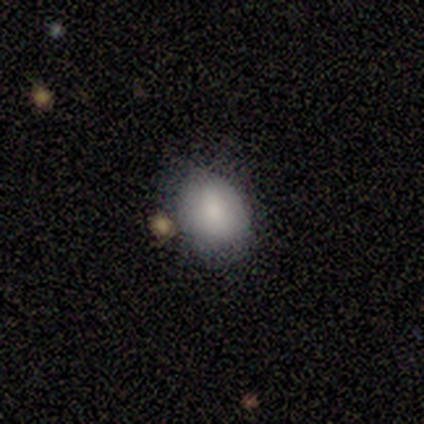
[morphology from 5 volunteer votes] Smooth or featured?
  - smooth: 80% *
  - star or artifact: 20%
  - featured or disk: 0%
How rounded?
  - round: 50% * (tied)
  - in between: 50% * (tied)
  - cigar-shaped: 0%
Merging?
  - none: 75% *
  - minor disturbance: 25%
  - major disturbance: 0%
  - merger: 0%